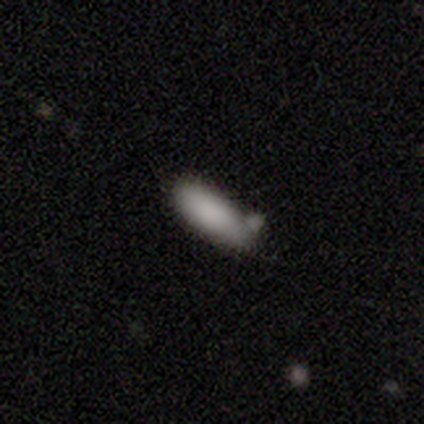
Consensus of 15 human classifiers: Morphology: type=smooth (80%); roundness=in between (75%); merging=none (36%, tied with minor disturbance).